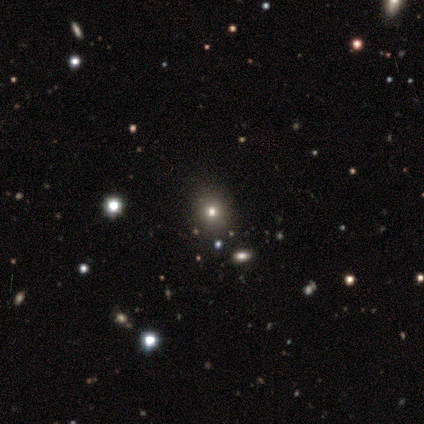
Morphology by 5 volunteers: Smooth or featured?
  - smooth: 60% *
  - featured or disk: 20%
  - star or artifact: 20%
How rounded?
  - round: 67% *
  - in between: 33%
  - cigar-shaped: 0%
Merging?
  - none: 75% *
  - merger: 25%
  - minor disturbance: 0%
  - major disturbance: 0%